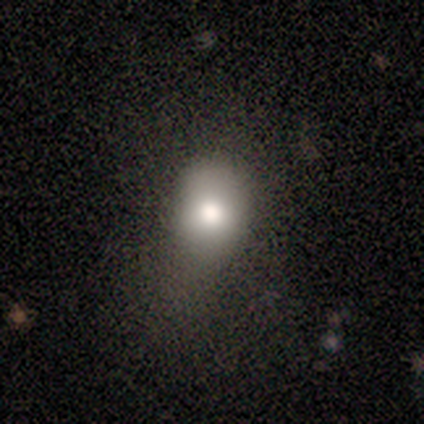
Smooth or featured? 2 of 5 (40%, tied with featured or disk) said smooth. How rounded? 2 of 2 (100%) said in between. Merging? 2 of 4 (50%, tied with minor disturbance) said none.